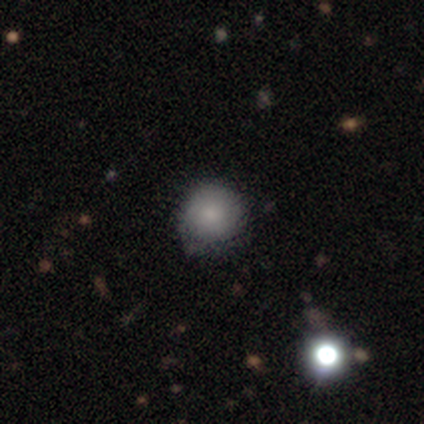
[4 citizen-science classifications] smooth-or-featured: smooth: 75% | featured or disk: 25% | star or artifact: 0%
  how-rounded: round: 100% | in between: 0% | cigar-shaped: 0%
  merging: none: 100% | minor disturbance: 0% | major disturbance: 0% | merger: 0%